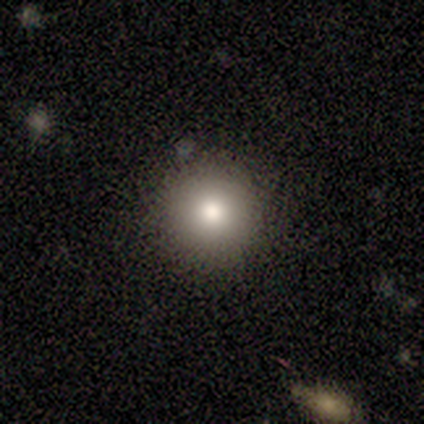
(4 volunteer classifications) A smooth galaxy with no disk features (75%) that is round (100%). Merging: none (100%).